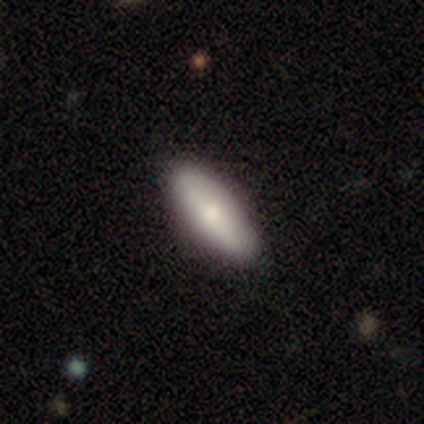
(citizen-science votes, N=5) This appears to be a smooth galaxy with no disk features (80%) that is in between round and cigar-shaped (50%, tied with cigar-shaped). Merging: none (100%).